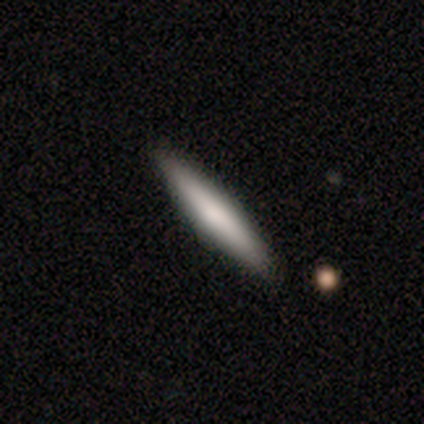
smooth_or_featured: smooth (p=0.78) [alt: featured or disk p=0.22]
how_rounded: cigar-shaped (p=1.00)
merging: none (p=0.89) [alt: minor disturbance p=0.11]